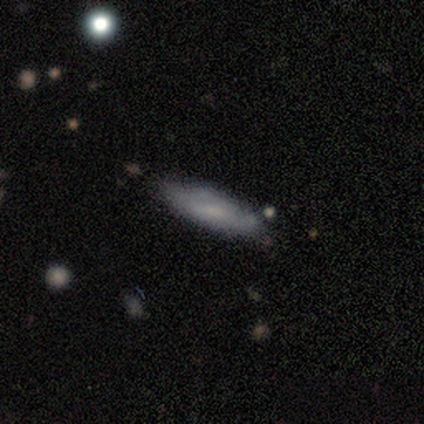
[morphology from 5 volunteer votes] Volunteers were most divided on "how rounded" (2-way tie): in between: 50%, cigar-shaped: 50%, round: 0%. More confident: smooth or featured — smooth (80%); merging — none (80%).